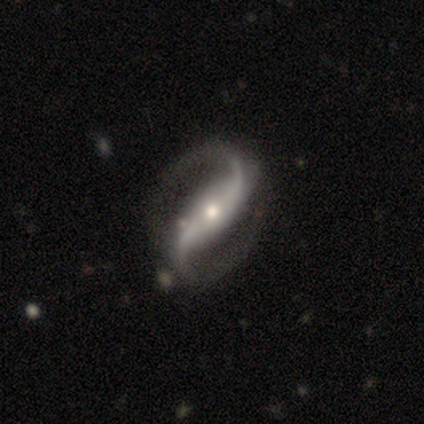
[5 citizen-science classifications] Volunteers were most divided on "spiral winding" (2-way tie): medium: 40%, loose: 40%, tight: 20%. More confident: smooth or featured — featured or disk (100%); edge-on disk — no (100%); spiral arms — yes (100%); spiral arm count — 2 (100%); merging — none (100%); bar — strong (60%); bulge size — moderate (60%).